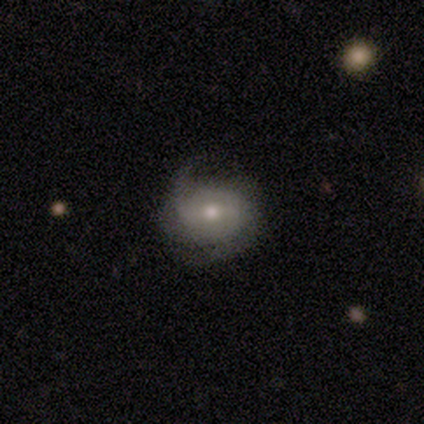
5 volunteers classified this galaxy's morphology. This appears to be a featured or disk galaxy (100%) with a weak bar (60%), 2 (80%) tight (60%) spiral arms (100%) and a moderate central bulge (100%). Merging: none (60%).